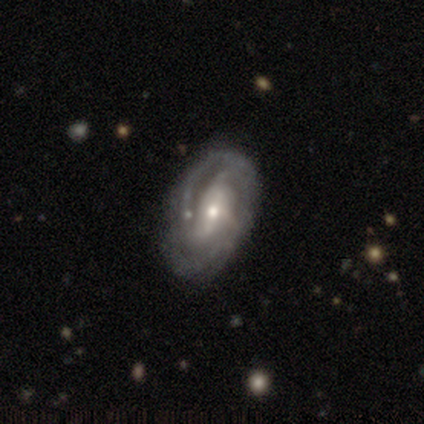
A featured or disk galaxy (86%) with a weak bar (39%), 2 (42%) tight (49%) spiral arms (94%) and a moderate central bulge (65%).

Vote fractions:
- Smooth or featured? featured or disk: 86% / smooth: 9% / star or artifact: 5%
- Edge-on disk? no: 100% / yes: 0%
- Bar? weak: 39% / strong: 36% / no: 25%
- Spiral arms? yes: 94% / no: 6%
- Spiral winding? tight: 49% / medium: 42% / loose: 9%
- Spiral arm count? 2: 42% / can't tell: 29% / 3: 22% / 4: 5% / more than 4: 3% / 1: 0%
- Bulge size? moderate: 65% / small: 33% / large: 1% / dominant: 0% / none: 0%
- Merging? none: 39% / minor disturbance: 8% / major disturbance: 3% / merger: 1%